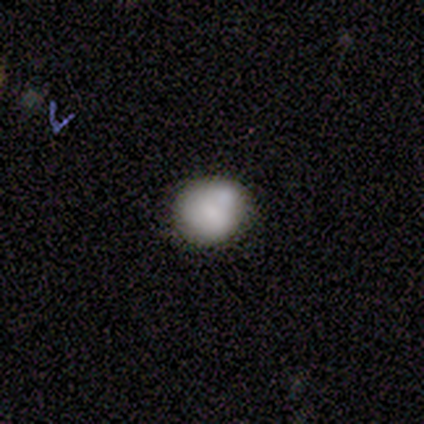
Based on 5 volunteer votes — featured or disk 60%, smooth 40%, star or artifact 0%. Down the decision tree: edge-on disk — no (100%); bar — no (67%); spiral arms — no (67%); bulge size — none (100%); merging — none (80%).